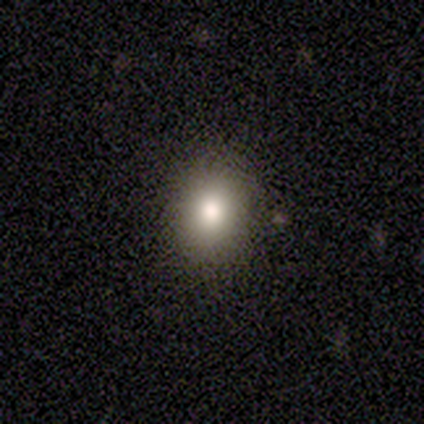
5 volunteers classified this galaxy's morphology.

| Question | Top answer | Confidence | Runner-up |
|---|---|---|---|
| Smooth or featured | smooth | 80% | star or artifact (20%) |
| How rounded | round | 50% | tied: in between (50%) |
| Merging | none | 50% | tied: minor disturbance (50%) |